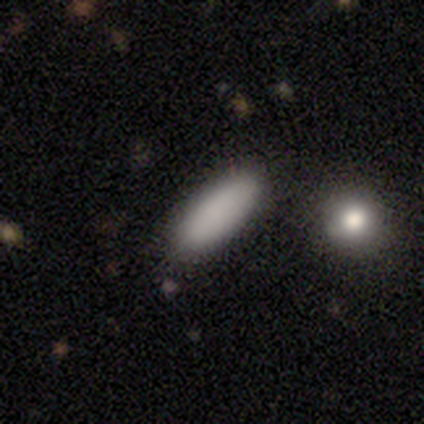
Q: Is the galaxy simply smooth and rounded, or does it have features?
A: smooth — 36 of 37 (97%).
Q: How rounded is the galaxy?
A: in between — 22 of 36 (61%).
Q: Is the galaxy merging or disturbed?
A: none — 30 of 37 (81%).